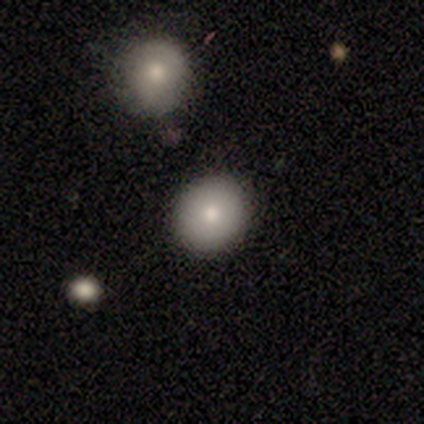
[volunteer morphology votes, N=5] Smooth or featured? 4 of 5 (80%) said smooth. How rounded? 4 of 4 (100%) said round. Merging? 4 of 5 (80%) said none.